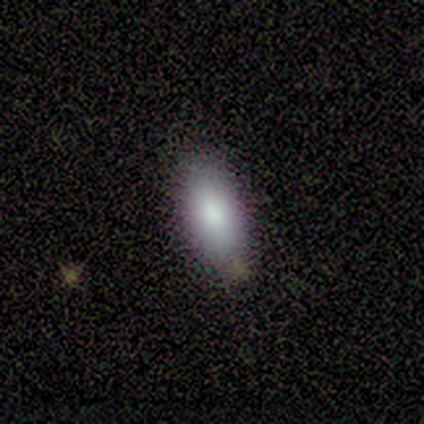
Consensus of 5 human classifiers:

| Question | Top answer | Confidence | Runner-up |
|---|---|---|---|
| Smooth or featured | smooth | 80% | featured or disk (20%) |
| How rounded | in between | 100% | — |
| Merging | none | 80% | minor disturbance (20%) |